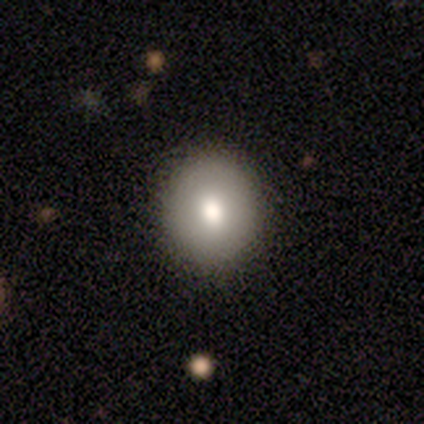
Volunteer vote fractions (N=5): This appears to be a smooth galaxy with no disk features (80%) that is round (100%). Merging: none (100%).